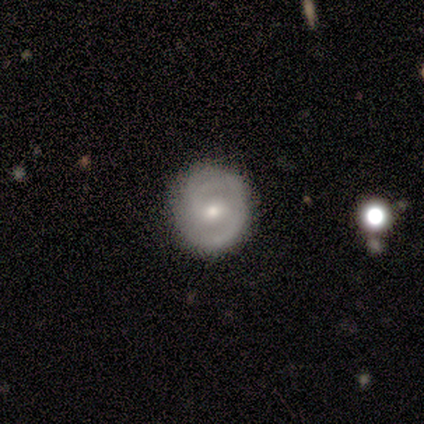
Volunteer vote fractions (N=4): A featured or disk galaxy (100%) with a weak bar (75%), 2 (67%) tight (67%) spiral arms (75%) and a moderate central bulge (75%). Merging: none (100%).